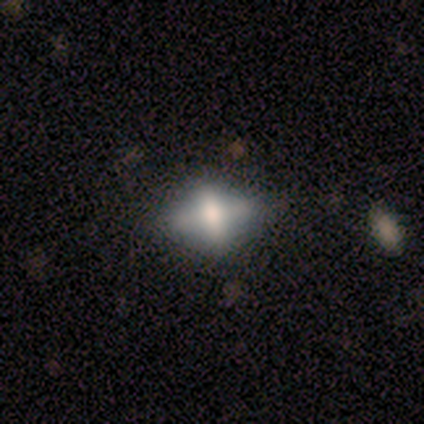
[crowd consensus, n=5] smooth_or_featured: smooth (p=0.60) [alt: featured or disk p=0.20]
how_rounded: in between (p=1.00)
merging: minor disturbance (p=0.50) [alt: none p=0.25]